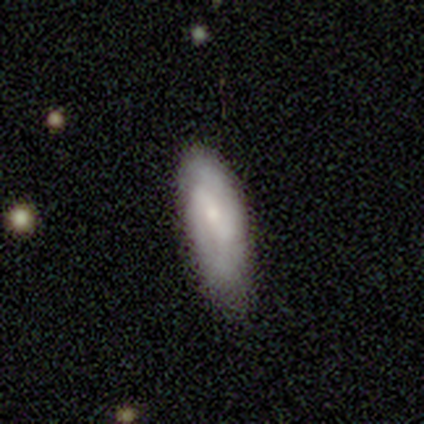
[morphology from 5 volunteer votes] type=featured or disk (80%); edge-on=no (100%); bar=no (50%); spiral arms=yes (75%); winding=tight (100%); arm count=2 (67%); bulge=small (100%); merging=none (100%).